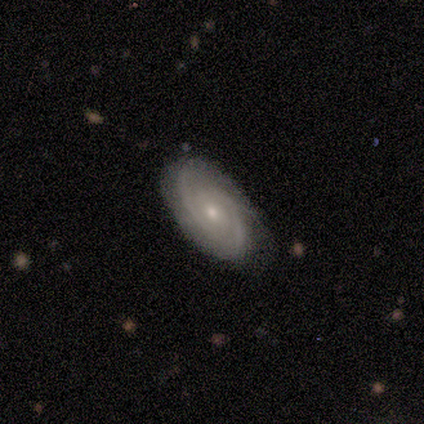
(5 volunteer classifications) Smooth or featured: featured or disk — 100%
Edge-on disk: no — 80% (yes — 20%)
Bar: no — 50% (strong — 25%)
Spiral arms: yes — 100%
Spiral winding: tight — 50% (medium — 25%)
Spiral arm count: 2 — 75% (can't tell — 25%)
Bulge size: moderate — 50% (tied with small — 50%)
Merging: none — 100%